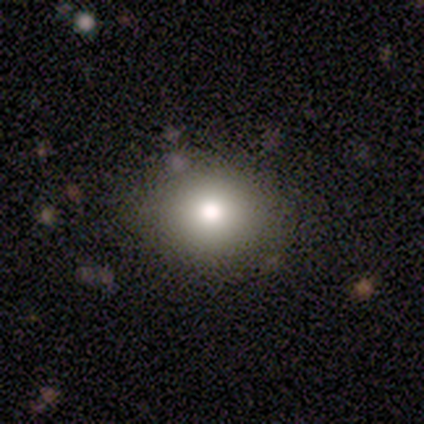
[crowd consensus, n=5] A smooth galaxy with no disk features (60%) that is round (67%). Merging: none (75%).